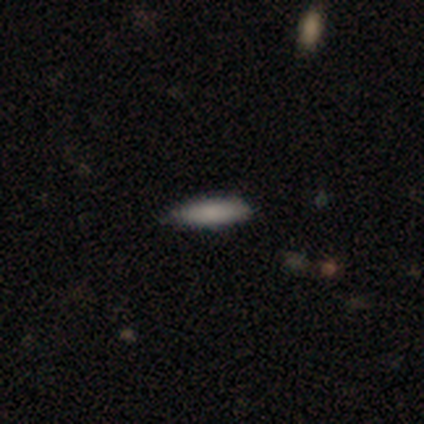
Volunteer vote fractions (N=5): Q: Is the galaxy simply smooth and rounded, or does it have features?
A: smooth — 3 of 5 (60%).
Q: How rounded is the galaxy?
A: cigar-shaped — 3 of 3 (100%).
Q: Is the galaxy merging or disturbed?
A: none — 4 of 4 (100%).